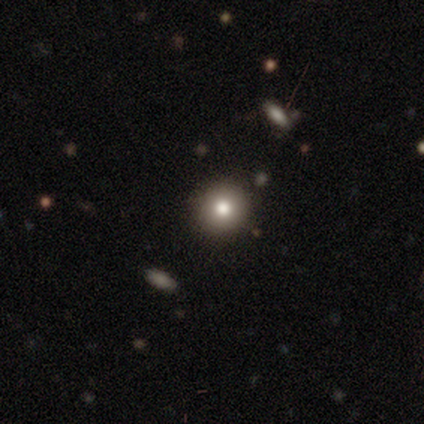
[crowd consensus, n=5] smooth-or-featured: smooth: 80% | star or artifact: 20% | featured or disk: 0%
  how-rounded: round: 100% | in between: 0% | cigar-shaped: 0%
  merging: none: 100% | minor disturbance: 0% | major disturbance: 0% | merger: 0%